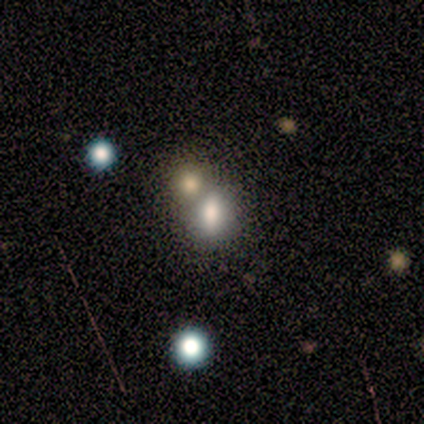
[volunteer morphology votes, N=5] A smooth galaxy with no disk features (60%) that is in between round and cigar-shaped (67%). Merging: merger (50%).